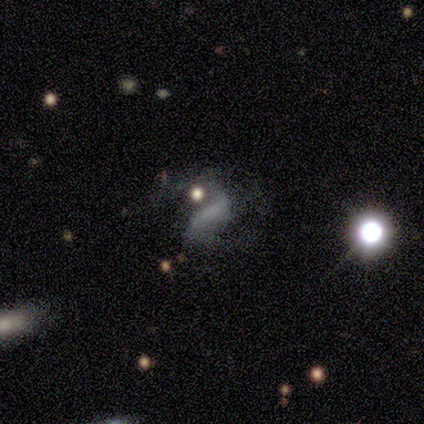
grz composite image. It shows a featured or disk galaxy (50%) with no bar (75%), 2 (50%, tied with can't tell) loose (75%) spiral arms (50%, tied with no) and no central bulge (75%). Merging: none (46%, tied with major disturbance).